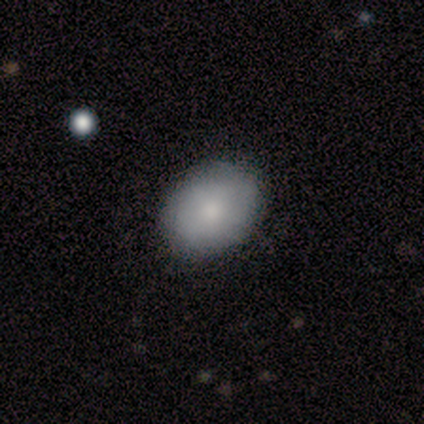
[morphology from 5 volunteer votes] smooth_or_featured: smooth (p=1.00)
how_rounded: round (p=0.60) [alt: in between p=0.40]
merging: none (p=1.00)